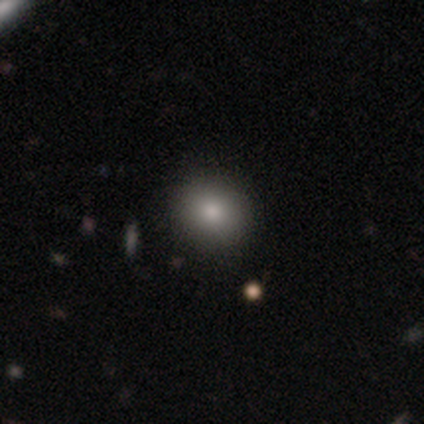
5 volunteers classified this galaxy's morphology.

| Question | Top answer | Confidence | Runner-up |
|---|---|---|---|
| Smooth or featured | smooth | 80% | star or artifact (20%) |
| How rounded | round | 75% | in between (25%) |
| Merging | none | 100% | — |